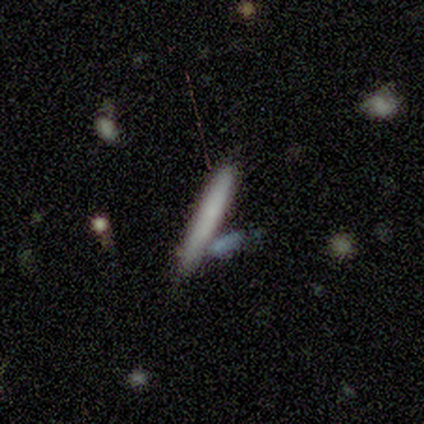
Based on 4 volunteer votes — Smooth or featured?
  - smooth: 100% *
  - featured or disk: 0%
  - star or artifact: 0%
How rounded?
  - cigar-shaped: 100% *
  - round: 0%
  - in between: 0%
Merging?
  - none: 75% *
  - merger: 25%
  - minor disturbance: 0%
  - major disturbance: 0%